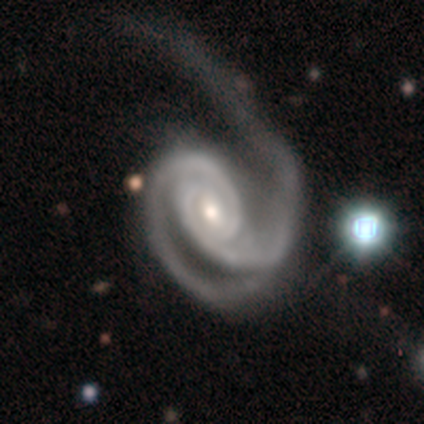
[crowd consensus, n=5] Smooth or featured? featured or disk (100%)
Edge-on disk? no (100%)
Bar? weak (60%)
Spiral arms? yes (100%)
Spiral winding? tight (100%)
Spiral arm count? 2 (100%)
Bulge size? moderate (80%)
Merging? major disturbance (60%)